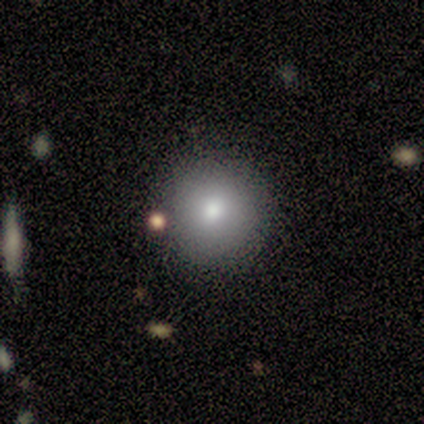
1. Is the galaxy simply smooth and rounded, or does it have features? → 100% smooth, 0% featured or disk, 0% star or artifact.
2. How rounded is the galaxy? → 100% round, 0% in between, 0% cigar-shaped.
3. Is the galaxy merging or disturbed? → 80% none, 20% minor disturbance, 0% major disturbance, 0% merger.